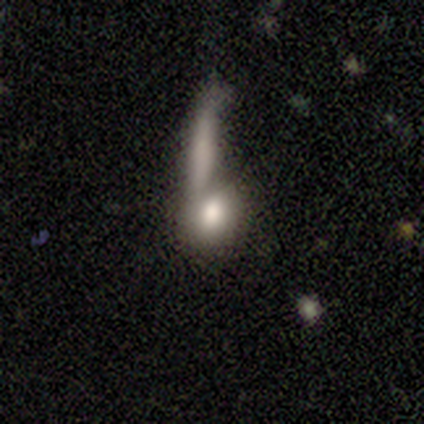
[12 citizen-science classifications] Volunteers were most divided on "merging" (2-way tie): none: 30%, minor disturbance: 30%, major disturbance: 20%, merger: 20%. More confident: how rounded — in between (71%); smooth or featured — smooth (58%).